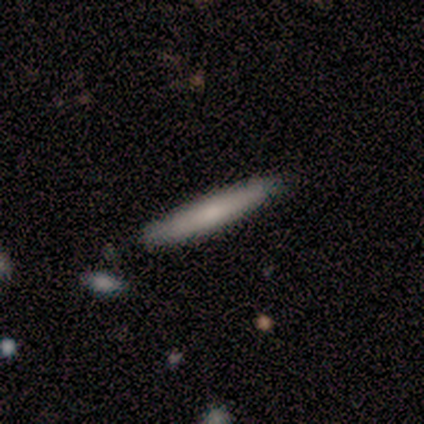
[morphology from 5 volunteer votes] smooth 100%, featured or disk 0%, star or artifact 0%. Down the decision tree: how rounded — cigar-shaped (100%); merging — none (100%).